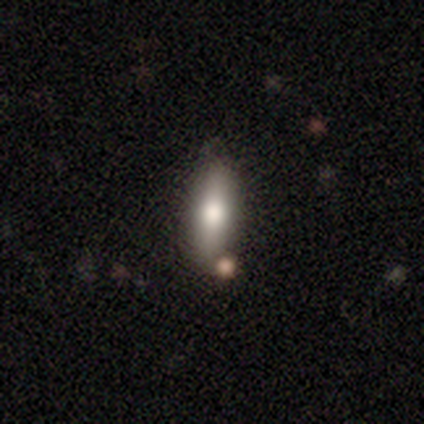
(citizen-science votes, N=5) Smooth or featured: smooth — 40% (tied with star or artifact — 40%)
How rounded: cigar-shaped — 100%
Merging: none — 67% (minor disturbance — 33%)